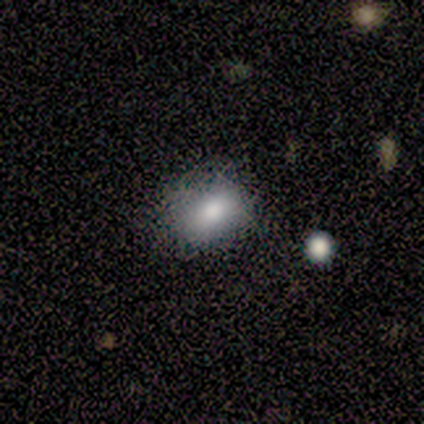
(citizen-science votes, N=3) Smooth or featured?
  - smooth: 100% *
  - featured or disk: 0%
  - star or artifact: 0%
How rounded?
  - in between: 67% *
  - round: 33%
  - cigar-shaped: 0%
Merging?
  - none: 100% *
  - minor disturbance: 0%
  - major disturbance: 0%
  - merger: 0%